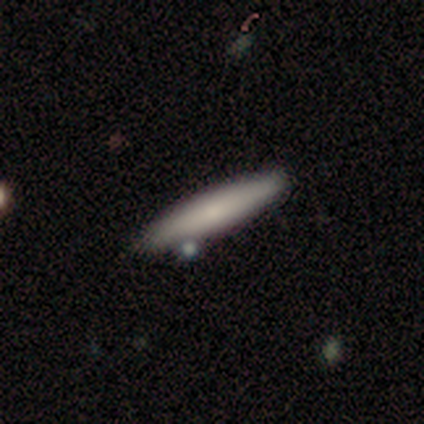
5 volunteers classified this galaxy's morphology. This is clearly a smooth galaxy (80%). How rounded: clearly cigar-shaped (100%). Merging: clearly none (80%).